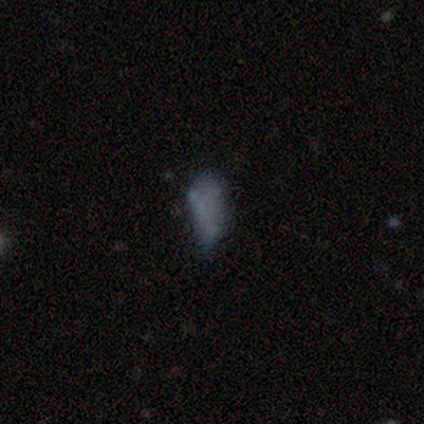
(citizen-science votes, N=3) This is likely a star or artifact rather than a galaxy (67%).